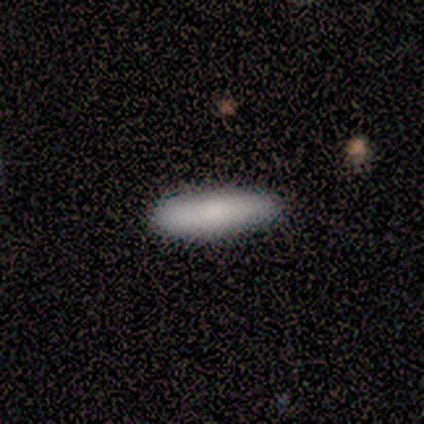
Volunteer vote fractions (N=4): smooth 75%, featured or disk 25%, star or artifact 0%. Down the decision tree: how rounded — cigar-shaped (100%); merging — none (75%).